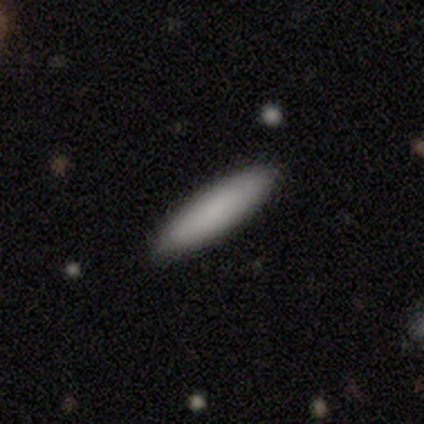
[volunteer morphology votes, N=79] smooth_or_featured: smooth (p=0.92) [alt: featured or disk p=0.05]
how_rounded: cigar-shaped (p=0.74) [alt: in between p=0.26]
merging: none (p=0.47) [alt: minor disturbance p=0.04]